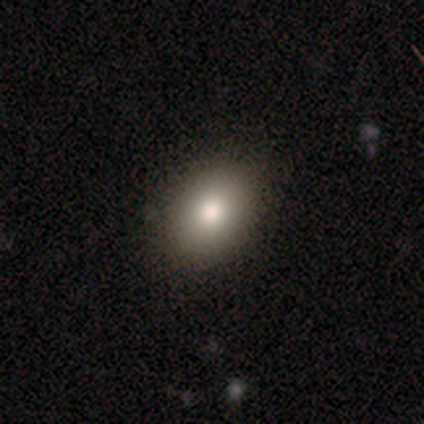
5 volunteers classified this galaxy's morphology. Smooth or featured? 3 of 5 (60%) said smooth. How rounded? 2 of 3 (67%) said in between. Merging? 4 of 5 (80%) said none.